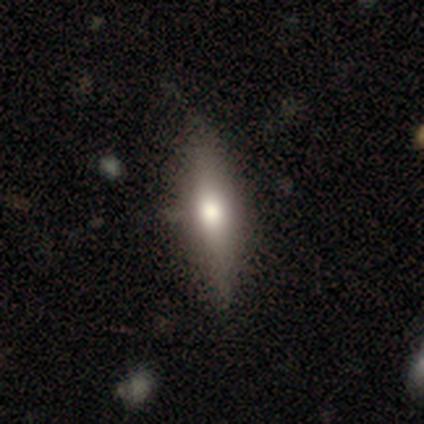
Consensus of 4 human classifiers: Smooth or featured?
  - smooth: 100% *
  - featured or disk: 0%
  - star or artifact: 0%
How rounded?
  - cigar-shaped: 100% *
  - round: 0%
  - in between: 0%
Merging?
  - none: 100% *
  - minor disturbance: 0%
  - major disturbance: 0%
  - merger: 0%